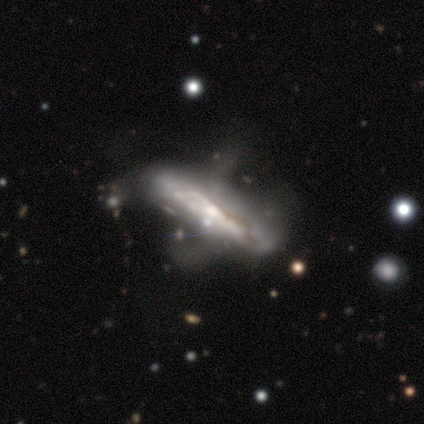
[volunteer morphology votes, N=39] Smooth or featured? 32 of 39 (82%) said featured or disk. Edge-on disk? 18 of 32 (56%) said yes. Edge-on bulge? 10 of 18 (56%) said rounded. Merging? 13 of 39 (33%) said major disturbance.